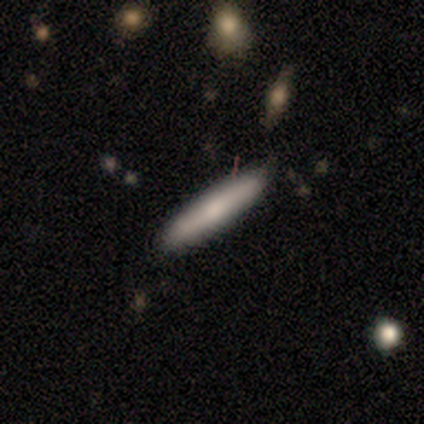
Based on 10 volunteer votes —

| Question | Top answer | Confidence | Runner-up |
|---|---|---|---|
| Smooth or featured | featured or disk | 60% | smooth (40%) |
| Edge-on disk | yes | 100% | — |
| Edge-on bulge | none | 50% | tied: rounded (50%) |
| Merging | none | 80% | major disturbance (10%) |